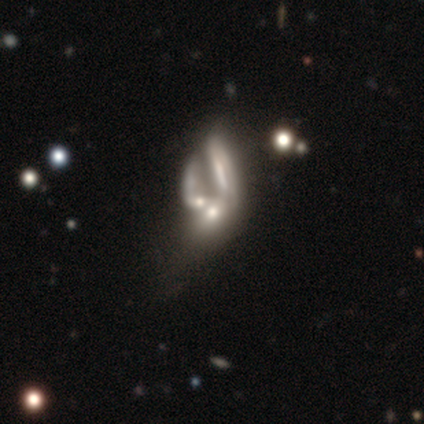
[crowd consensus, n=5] Volunteers were most divided on "bulge size" (3-way tie): moderate: 33%, small: 33%, none: 33%, dominant: 0%, large: 0%. More confident: bar — no (100%); smooth or featured — featured or disk (80%); merging — merger (80%); edge-on disk — no (75%); spiral arms — no (67%).